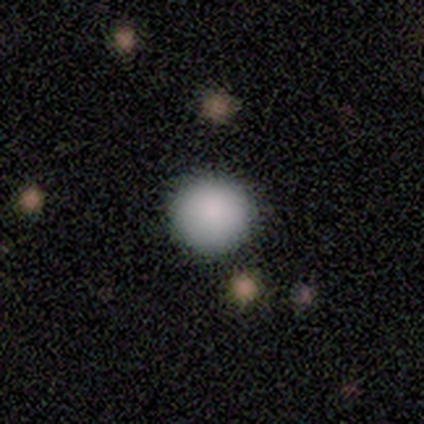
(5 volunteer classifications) Q: Smooth or featured?
A: smooth (60%); runner-up: star or artifact (40%)
Q: How rounded?
A: round (100%)
Q: Merging?
A: none (100%)